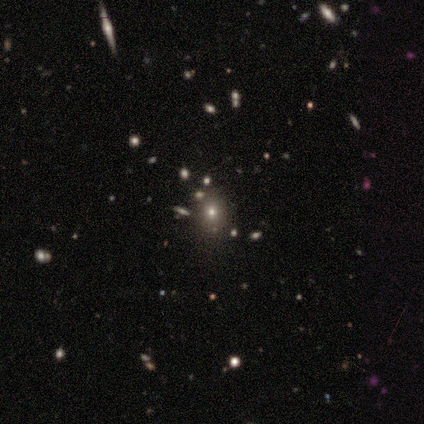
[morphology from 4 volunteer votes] Smooth or featured? smooth (75%)
How rounded? round (67%)
Merging? none (67%)